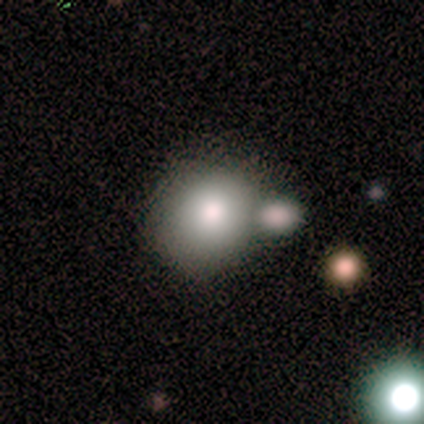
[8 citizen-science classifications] smooth_or_featured: smooth (p=0.75) [alt: featured or disk p=0.12]
how_rounded: round (p=0.67) [alt: in between p=0.33]
merging: none (p=0.71) [alt: minor disturbance p=0.14]